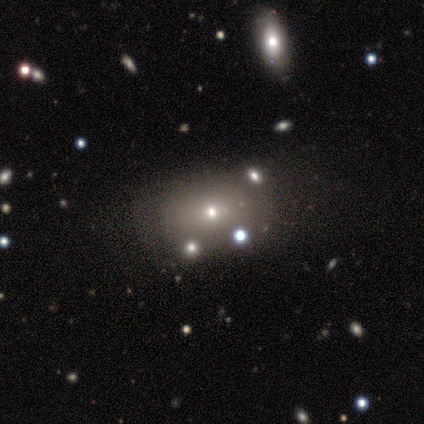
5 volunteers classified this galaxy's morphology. smooth_or_featured: smooth (p=0.60) [alt: featured or disk p=0.20]
how_rounded: round (p=0.67) [alt: in between p=0.33]
merging: none (p=0.50) [alt: minor disturbance p=0.25]